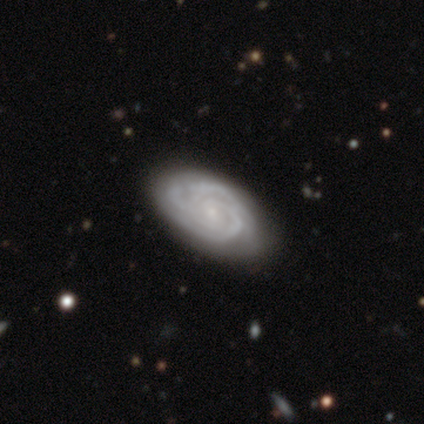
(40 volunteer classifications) Smooth or featured? featured or disk (90%)
Edge-on disk? no (100%)
Bar? no (64%)
Spiral arms? yes (100%)
Spiral winding? tight (89%)
Spiral arm count? 3 (44%)
Bulge size? small (69%)
Merging? none (52%)